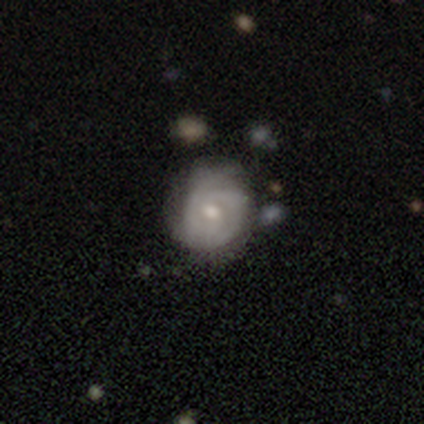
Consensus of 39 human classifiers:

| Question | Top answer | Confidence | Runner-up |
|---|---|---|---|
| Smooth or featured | featured or disk | 79% | smooth (18%) |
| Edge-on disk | no | 100% | — |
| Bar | no | 71% | weak (29%) |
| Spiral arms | yes | 84% | no (16%) |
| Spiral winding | tight | 65% | medium (31%) |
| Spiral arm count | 2 | 62% | can't tell (27%) |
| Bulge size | moderate | 74% | small (13%) |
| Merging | none | 39% | minor disturbance (11%) |